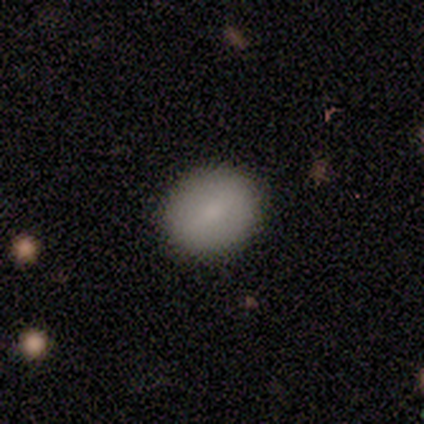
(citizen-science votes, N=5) Smooth or featured: smooth — 80% (featured or disk — 20%)
How rounded: round — 75% (in between — 25%)
Merging: none — 100%